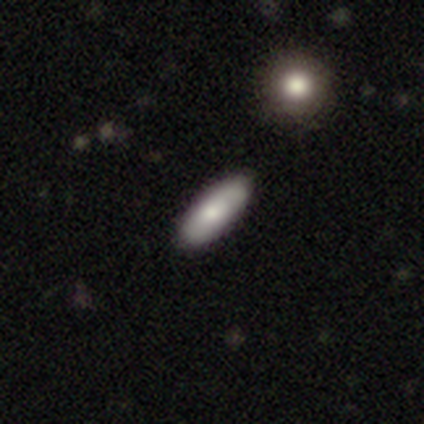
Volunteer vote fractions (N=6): Morphology: type=smooth (100%); roundness=in between (83%); merging=none (100%).